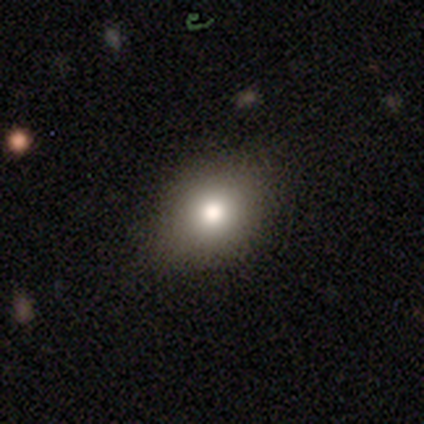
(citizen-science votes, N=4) This is clearly a smooth galaxy (100%). How rounded: likely in between (75%). Merging: clearly none (100%).